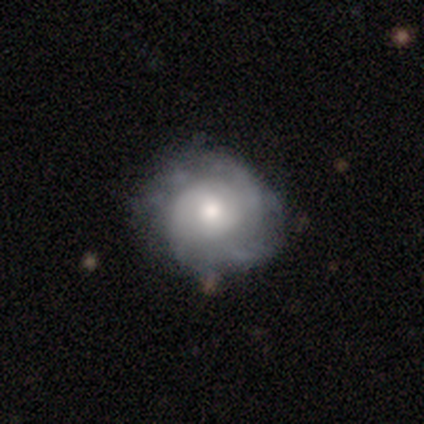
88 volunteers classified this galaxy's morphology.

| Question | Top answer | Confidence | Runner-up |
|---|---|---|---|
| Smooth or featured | featured or disk | 60% | smooth (28%) |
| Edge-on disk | no | 96% | yes (4%) |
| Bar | no | 73% | weak (24%) |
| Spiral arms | yes | 88% | no (12%) |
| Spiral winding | tight | 58% | medium (33%) |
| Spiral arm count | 2 | 42% | can't tell (29%) |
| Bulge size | moderate | 65% | small (24%) |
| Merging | none | 74% | minor disturbance (17%) |